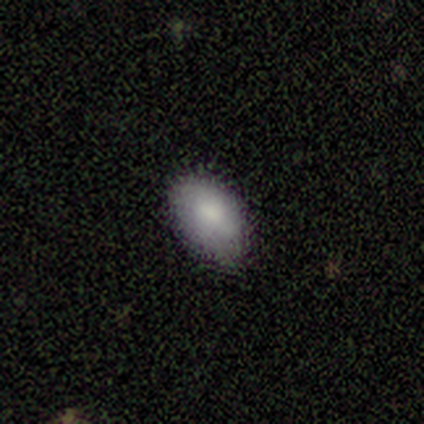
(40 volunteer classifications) This is clearly a smooth galaxy (85%). How rounded: clearly in between (91%). Merging: likely none (78%).